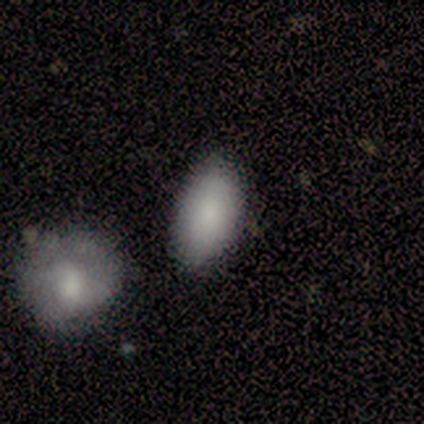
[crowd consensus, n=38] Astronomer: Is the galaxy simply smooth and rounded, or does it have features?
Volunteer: smooth — 84%.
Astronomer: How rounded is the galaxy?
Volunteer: in between — 91%.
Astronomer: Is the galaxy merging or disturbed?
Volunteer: none — 86%.